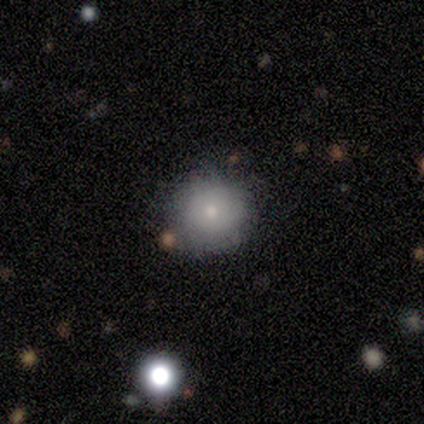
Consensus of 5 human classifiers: smooth_or_featured: smooth (p=0.80) [alt: featured or disk p=0.20]
how_rounded: round (p=1.00)
merging: none (p=1.00)